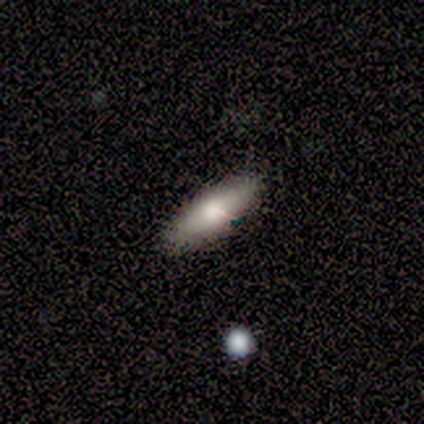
smooth 100%, featured or disk 0%, star or artifact 0%. Down the decision tree: how rounded — in between (50%, tied with cigar-shaped); merging — none (100%).